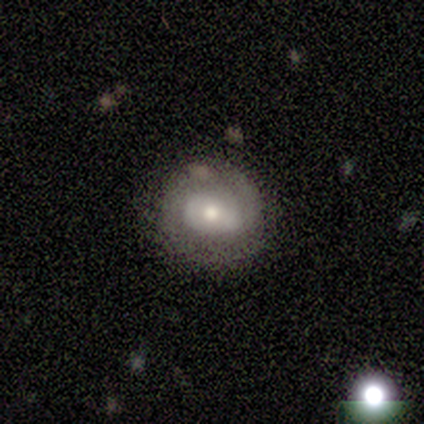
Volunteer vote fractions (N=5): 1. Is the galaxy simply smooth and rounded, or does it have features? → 80% featured or disk, 20% smooth, 0% star or artifact.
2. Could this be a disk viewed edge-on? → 100% no, 0% yes.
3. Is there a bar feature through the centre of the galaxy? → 100% no, 0% strong, 0% weak.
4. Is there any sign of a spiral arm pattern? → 50% yes (tied), 50% no (tied).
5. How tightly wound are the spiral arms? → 100% tight, 0% medium, 0% loose.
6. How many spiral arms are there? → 100% can't tell, 0% 1, 0% 2, 0% 3, 0% 4, 0% more than 4.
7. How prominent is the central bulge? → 75% moderate, 25% large, 0% dominant, 0% small, 0% none.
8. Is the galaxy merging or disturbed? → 100% none, 0% minor disturbance, 0% major disturbance, 0% merger.